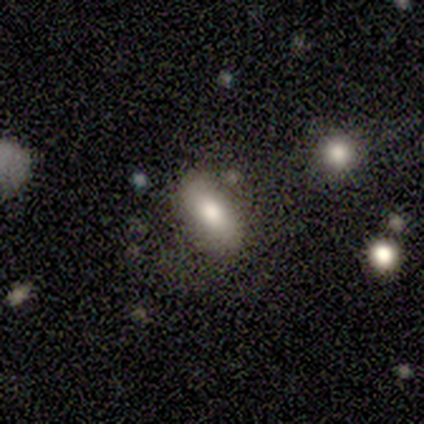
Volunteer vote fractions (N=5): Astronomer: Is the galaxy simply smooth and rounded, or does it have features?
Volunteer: smooth — 60%.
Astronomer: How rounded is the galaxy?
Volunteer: in between — 100%.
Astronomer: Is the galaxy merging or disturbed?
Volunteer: none — 75%.